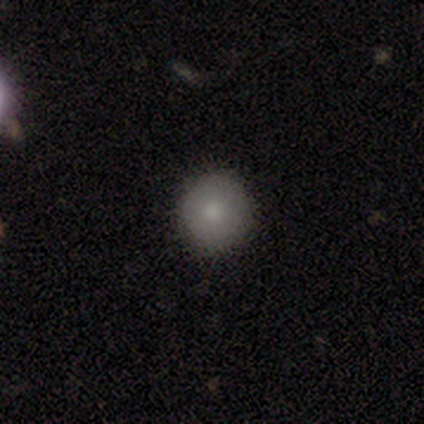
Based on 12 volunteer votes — smooth_or_featured: smooth (p=0.58) [alt: featured or disk p=0.25]
how_rounded: round (p=1.00)
merging: none (p=0.80) [alt: minor disturbance p=0.10]